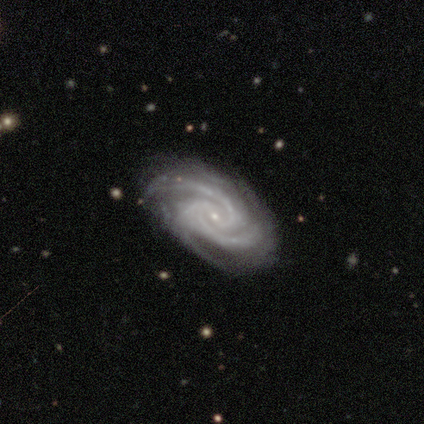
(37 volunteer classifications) This appears to be a featured or disk galaxy (95%) with no bar (46%), 2 (43%, tied with 3) tight (60%) spiral arms (100%) and a small central bulge (86%). Merging: none (86%).